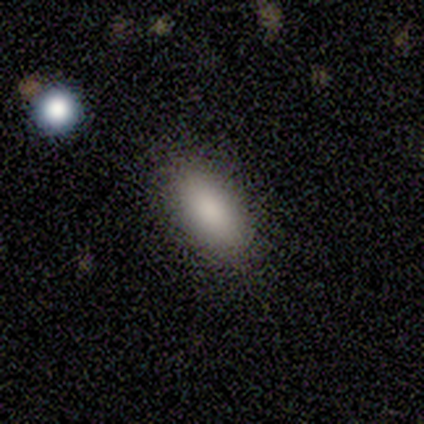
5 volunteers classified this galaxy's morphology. smooth-or-featured: smooth: 80% | featured or disk: 20% | star or artifact: 0%
  how-rounded: in between: 100% | round: 0% | cigar-shaped: 0%
  merging: none: 80% | minor disturbance: 20% | major disturbance: 0% | merger: 0%